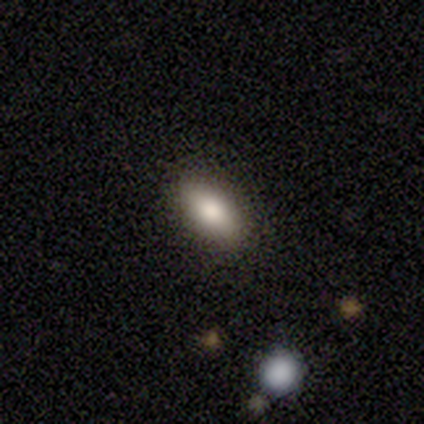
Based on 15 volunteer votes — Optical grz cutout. It shows a smooth galaxy with no disk features (87%) that is in between round and cigar-shaped (92%). Merging: none (86%).